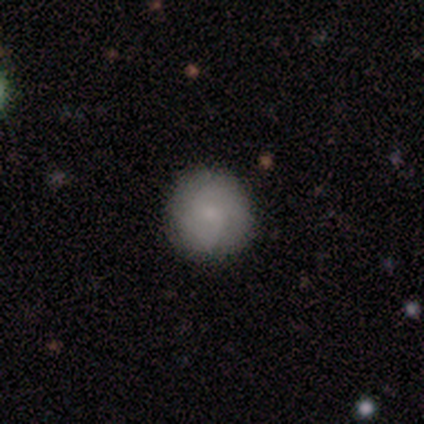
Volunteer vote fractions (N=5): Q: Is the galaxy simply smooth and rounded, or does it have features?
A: smooth — 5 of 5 (100%).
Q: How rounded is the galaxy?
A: round — 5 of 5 (100%).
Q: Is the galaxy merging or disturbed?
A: none — 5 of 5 (100%).